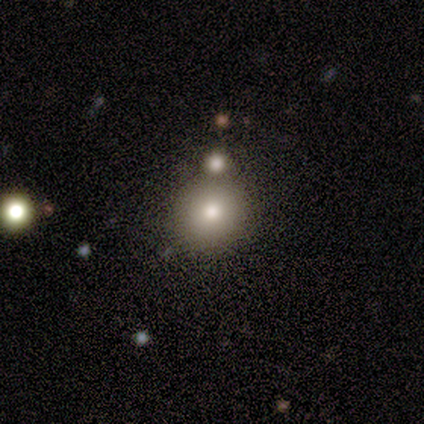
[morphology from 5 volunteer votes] Overall: smooth (80%). How rounded: round (100%). Merging: none (60%; merger 40%).